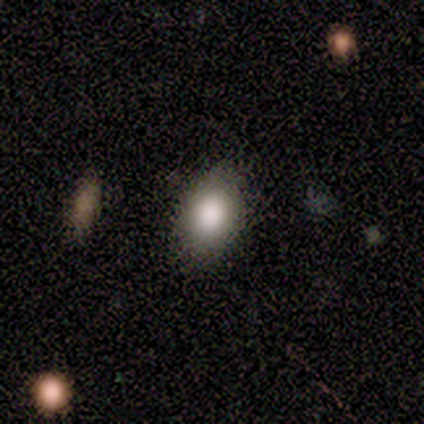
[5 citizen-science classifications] This is clearly a smooth galaxy (80%). How rounded: likely in between (75%). Merging: clearly none (100%).